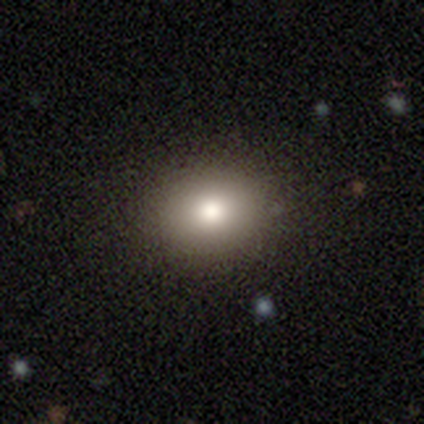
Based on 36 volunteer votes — A smooth galaxy with no disk features (89%) that is round (56%).

Vote fractions:
- Smooth or featured? smooth: 89% / star or artifact: 8% / featured or disk: 3%
- How rounded? round: 56% / in between: 44% / cigar-shaped: 0%
- Merging? none: 85% / minor disturbance: 12% / major disturbance: 3% / merger: 0%